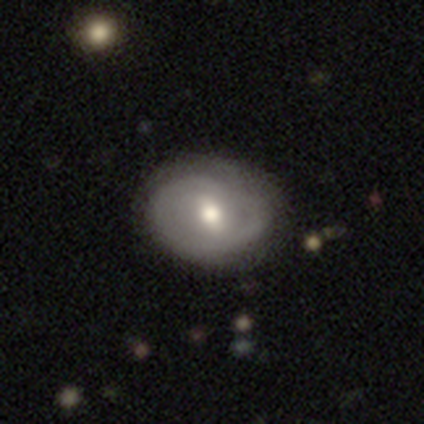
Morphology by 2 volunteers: This appears to be a featured or disk galaxy (100%) with a weak bar (50%, tied with no), 1 (50%, tied with can't tell) loose (100%) spiral arms (100%) and a moderate central bulge (100%). Merging: none (50%, tied with minor disturbance).